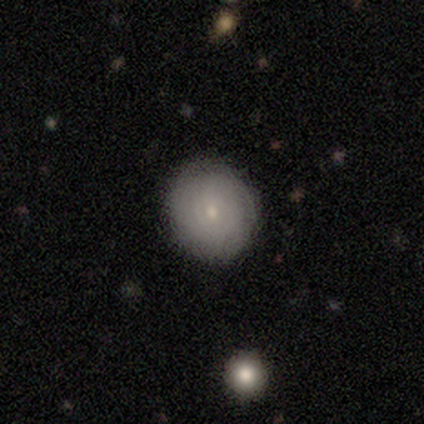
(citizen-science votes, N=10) This appears to be a featured or disk galaxy (60%) with no bar (100%), tight (67%) spiral arms (50%, tied with no) and a small central bulge (83%). Merging: none (100%).